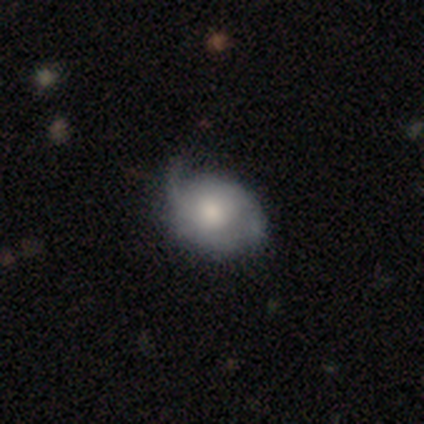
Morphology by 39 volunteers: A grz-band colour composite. It shows a featured or disk galaxy (49%) with no bar (95%), 2 (67%) loose (67%) spiral arms (63%) and a moderate central bulge (53%). Merging: none (43%, tied with minor disturbance).